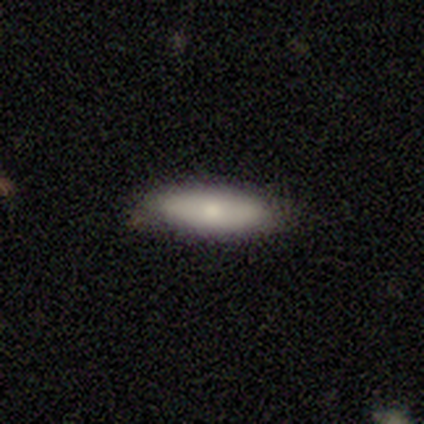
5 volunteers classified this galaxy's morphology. A smooth galaxy with no disk features (100%) that is in between round and cigar-shaped (60%). Merging: none (100%).